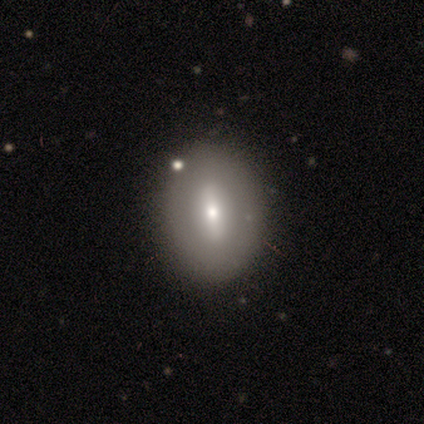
Morphology: type=featured or disk (60%); edge-on=no (67%); bar=strong (100%); spiral arms=no (100%); bulge=moderate (50%, tied with small); merging=none (100%).